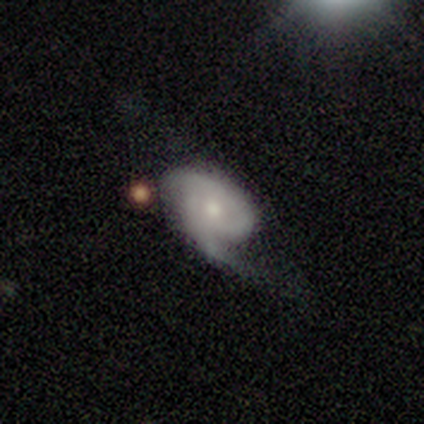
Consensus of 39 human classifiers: A featured or disk galaxy (77%) with no bar (79%), 2 (67%) medium (38%) spiral arms (86%) and a small central bulge (50%).

Vote fractions:
- Smooth or featured? featured or disk: 77% / smooth: 18% / star or artifact: 5%
- Edge-on disk? no: 93% / yes: 7%
- Bar? no: 79% / weak: 14% / strong: 7%
- Spiral arms? yes: 86% / no: 14%
- Spiral winding? medium: 38% / loose: 33% / tight: 29%
- Spiral arm count? 2: 67% / 1: 12% / can't tell: 12% / 3: 4% / more than 4: 4% / 4: 0%
- Bulge size? small: 50% / moderate: 43% / dominant: 4% / none: 4% / large: 0%
- Merging? minor disturbance: 38% / major disturbance: 35% / none: 24% / merger: 3%